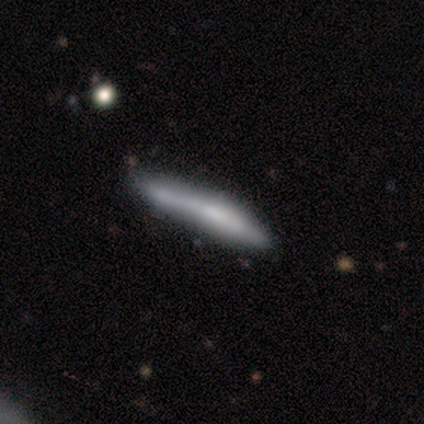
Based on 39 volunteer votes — Morphology: type=smooth (51%); roundness=cigar-shaped (95%); merging=none (38%).